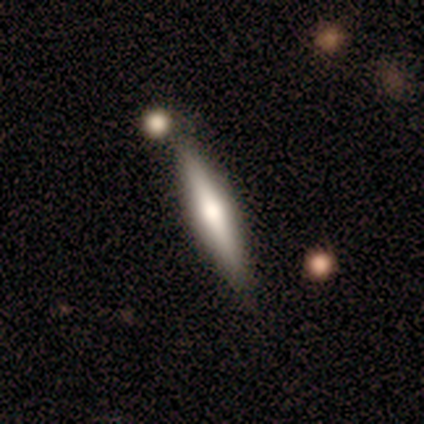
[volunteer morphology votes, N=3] type=smooth (100%); roundness=cigar-shaped (100%); merging=none (33%, tied with minor disturbance and merger).